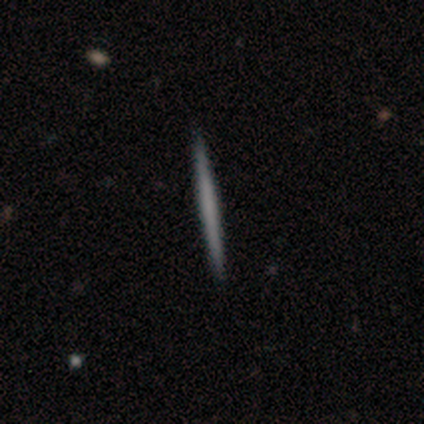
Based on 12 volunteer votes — This is possibly a smooth galaxy (50%, tied with featured or disk). How rounded: clearly cigar-shaped (100%). Merging: clearly none (100%).